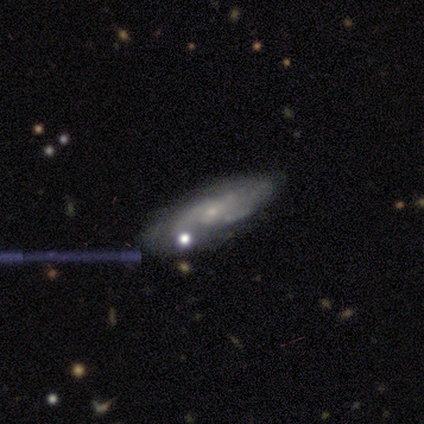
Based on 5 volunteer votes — smooth-or-featured: featured or disk: 80% | smooth: 20% | star or artifact: 0%
  disk-edge-on: no: 75% | yes: 25%
    bar: no: 100% | strong: 0% | weak: 0%
    has-spiral-arms: yes: 67% | no: 33%
      spiral-winding: medium: 100% | tight: 0% | loose: 0%
      spiral-arm-count: 3: 50% (tied) | can't tell: 50% (tied) | 1: 0% | 2: 0% | 4: 0% | more than 4: 0%
    bulge-size: small: 67% | none: 33% | dominant: 0% | large: 0% | moderate: 0%
  merging: none: 80% | minor disturbance: 20% | major disturbance: 0% | merger: 0%